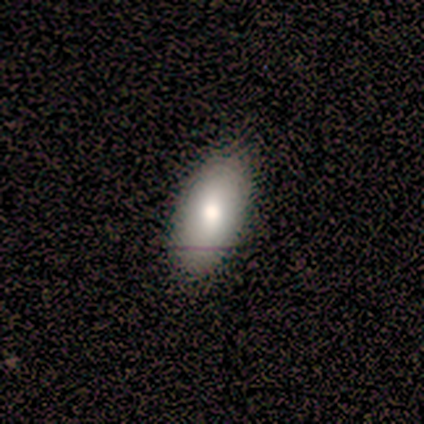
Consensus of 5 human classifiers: This appears to be a smooth galaxy with no disk features (80%) that is in between round and cigar-shaped (100%). Merging: none (75%).